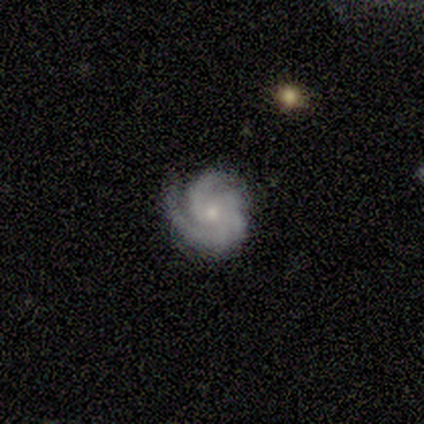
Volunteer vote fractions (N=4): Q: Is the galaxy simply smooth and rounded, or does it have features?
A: featured or disk — 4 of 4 (100%).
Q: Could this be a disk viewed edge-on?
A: no — 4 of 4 (100%).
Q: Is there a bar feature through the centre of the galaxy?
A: no — 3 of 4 (75%).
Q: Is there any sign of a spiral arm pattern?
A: yes — 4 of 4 (100%).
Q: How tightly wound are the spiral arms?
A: tight — 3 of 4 (75%).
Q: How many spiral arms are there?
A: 3 — 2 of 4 (50%).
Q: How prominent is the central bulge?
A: small — 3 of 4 (75%).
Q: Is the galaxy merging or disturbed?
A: none — 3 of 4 (75%).